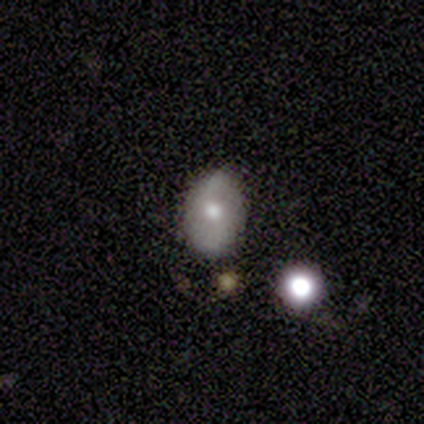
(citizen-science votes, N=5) featured or disk 80%, smooth 20%, star or artifact 0%. Down the decision tree: edge-on disk — no (100%); bar — no (50%); spiral arms — yes (75%); spiral arm count — 2 (100%); spiral winding — loose (100%); bulge size — moderate (100%); merging — none (80%).